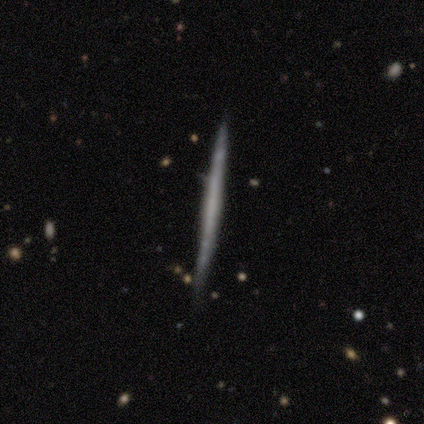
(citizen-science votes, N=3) Volunteers were most divided on "smooth or featured": smooth: 67%, featured or disk: 33%, star or artifact: 0%. More confident: how rounded — cigar-shaped (100%); merging — none (67%).